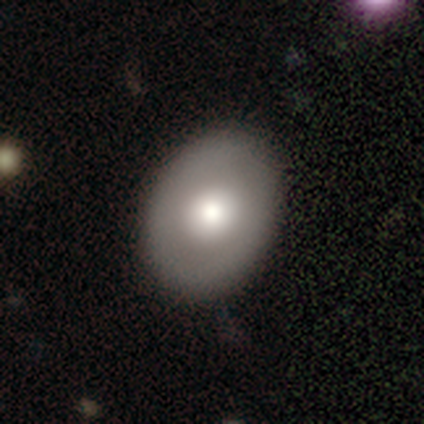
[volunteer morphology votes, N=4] smooth_or_featured: smooth (p=0.50) [tied with: featured or disk p=0.50]
how_rounded: round (p=0.50) [tied with: in between p=0.50]
merging: none (p=1.00)